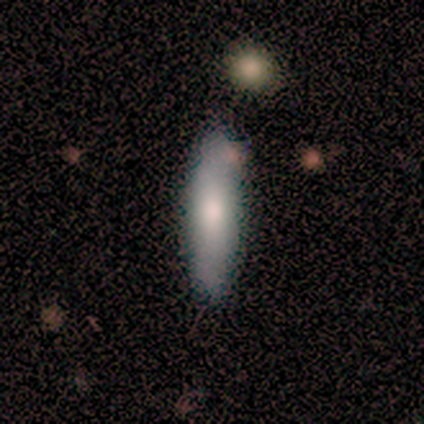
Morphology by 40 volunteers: A smooth galaxy with no disk features (80%) that is cigar-shaped (78%).

Vote fractions:
- Smooth or featured? smooth: 80% / featured or disk: 12% / star or artifact: 8%
- How rounded? cigar-shaped: 78% / in between: 22% / round: 0%
- Merging? none: 81% / minor disturbance: 11% / merger: 5% / major disturbance: 3%